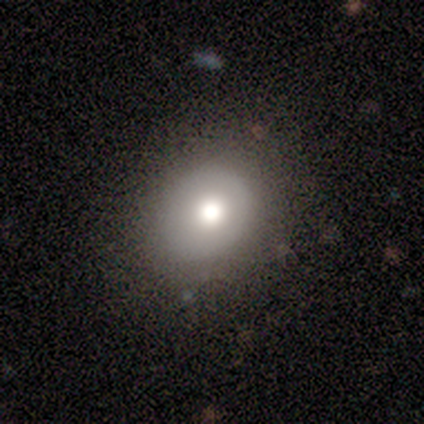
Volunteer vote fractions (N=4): smooth-or-featured: featured or disk: 50% | smooth: 25% | star or artifact: 25%
  disk-edge-on: no: 100% | yes: 0%
    bar: no: 100% | strong: 0% | weak: 0%
    has-spiral-arms: no: 100% | yes: 0%
    bulge-size: large: 50% (tied) | moderate: 50% (tied) | dominant: 0% | small: 0% | none: 0%
  merging: none: 67% | minor disturbance: 33% | major disturbance: 0% | merger: 0%